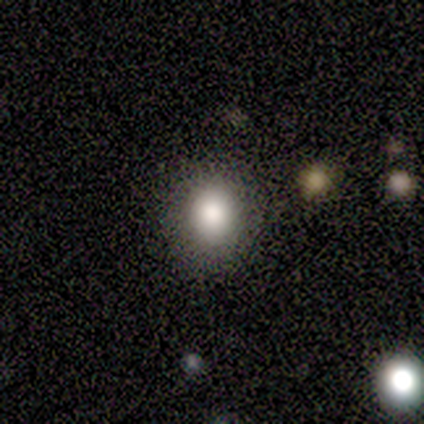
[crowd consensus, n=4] Q: Smooth or featured?
A: smooth (50%); tied with: featured or disk (50%)
Q: How rounded?
A: round (50%); tied with: in between (50%)
Q: Merging?
A: none (50%); runner-up: minor disturbance (25%)